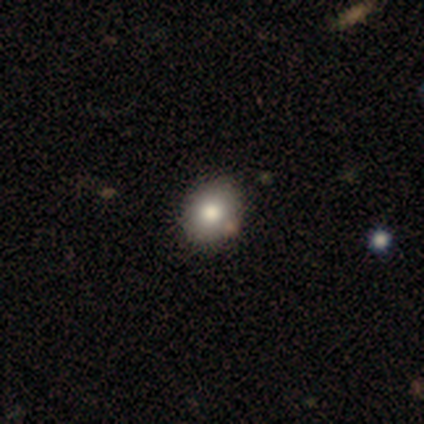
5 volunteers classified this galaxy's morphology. This is likely a smooth galaxy (60%). How rounded: likely in between (67%). Merging: clearly none (100%).